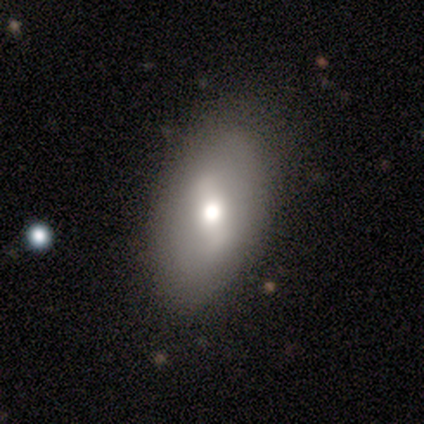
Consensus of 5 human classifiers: smooth-or-featured: smooth: 80% | star or artifact: 20% | featured or disk: 0%
  how-rounded: in between: 100% | round: 0% | cigar-shaped: 0%
  merging: none: 75% | major disturbance: 25% | minor disturbance: 0% | merger: 0%